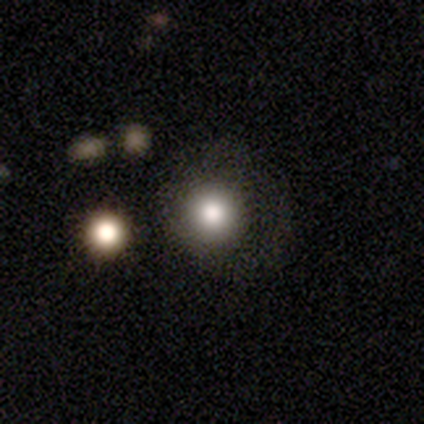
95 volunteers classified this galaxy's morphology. Smooth or featured?
  - smooth: 66% *
  - star or artifact: 18%
  - featured or disk: 16%
How rounded?
  - round: 92% *
  - in between: 8%
  - cigar-shaped: 0%
Merging?
  - none: 67% *
  - major disturbance: 17%
  - minor disturbance: 14%
  - merger: 3%